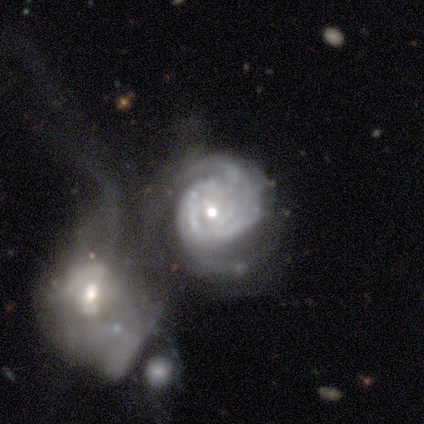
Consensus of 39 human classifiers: Smooth or featured? featured or disk (95%)
Edge-on disk? no (100%)
Bar? no (65%)
Spiral arms? yes (100%)
Spiral winding? tight (86%)
Spiral arm count? can't tell (43%)
Bulge size? moderate (59%)
Merging? merger (76%)